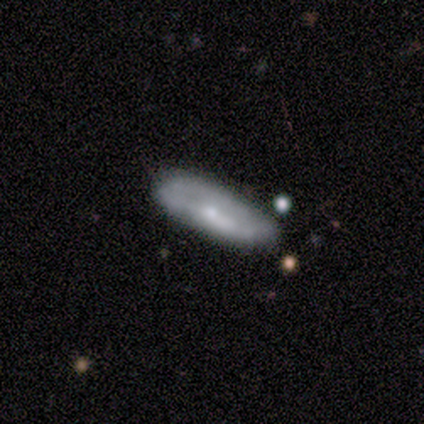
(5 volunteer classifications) Smooth or featured: smooth — 100%
How rounded: in between — 80% (cigar-shaped — 20%)
Merging: none — 80% (minor disturbance — 20%)